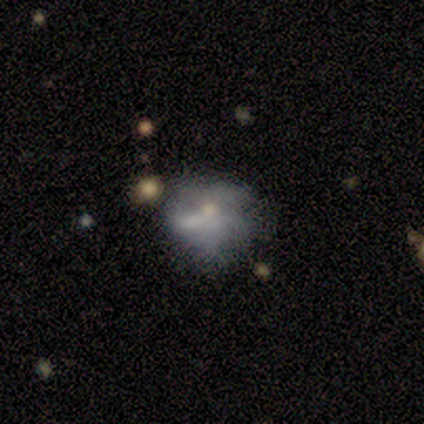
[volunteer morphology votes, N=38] Smooth or featured: smooth — 50% (featured or disk — 32%)
How rounded: round — 53% (in between — 47%)
Merging: none — 48% (minor disturbance — 26%)